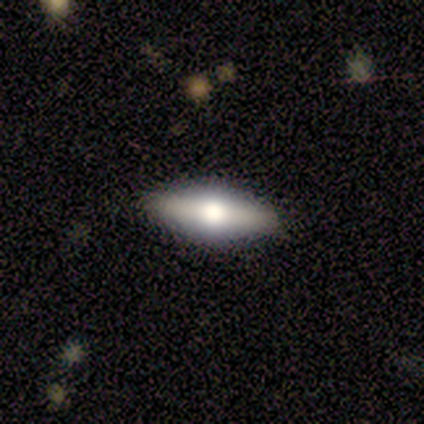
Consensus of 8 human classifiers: Smooth or featured? 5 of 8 (62%) said featured or disk. Edge-on disk? 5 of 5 (100%) said yes. Edge-on bulge? 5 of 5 (100%) said rounded. Merging? 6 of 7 (86%) said none.